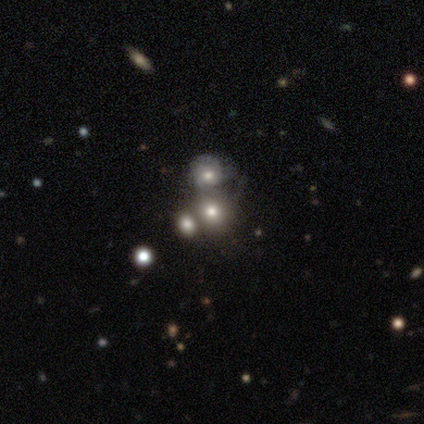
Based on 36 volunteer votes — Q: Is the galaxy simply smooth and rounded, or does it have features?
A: smooth — 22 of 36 (61%).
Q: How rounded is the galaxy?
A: round — 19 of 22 (86%).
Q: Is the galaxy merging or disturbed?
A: merger — 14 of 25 (56%).